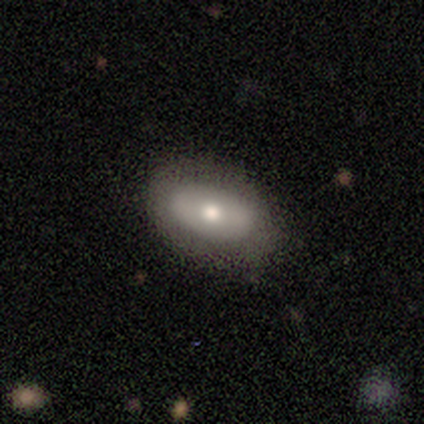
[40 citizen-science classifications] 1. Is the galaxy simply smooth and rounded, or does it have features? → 62% smooth, 30% featured or disk, 8% star or artifact.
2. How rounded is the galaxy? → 88% in between, 8% round, 4% cigar-shaped.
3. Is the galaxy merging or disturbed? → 73% none, 19% minor disturbance, 8% major disturbance, 0% merger.